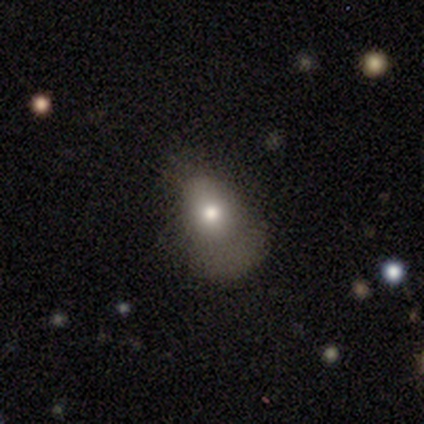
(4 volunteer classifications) This appears to be a smooth galaxy with no disk features (50%) that is round (50%, tied with in between). Merging: none (33%, tied with minor disturbance and major disturbance).